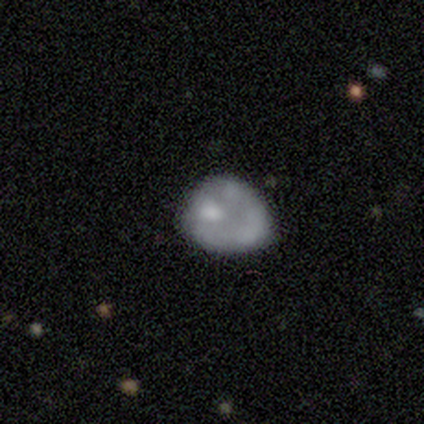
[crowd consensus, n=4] A featured or disk galaxy (75%) with no bar (100%), no spiral arms (100%) and no central bulge (67%). Merging: none (33%, tied with minor disturbance and major disturbance).